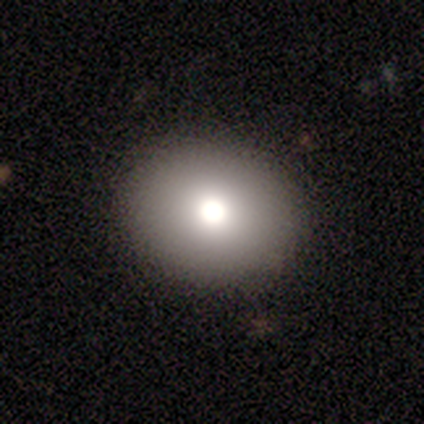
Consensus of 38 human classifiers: A smooth galaxy with no disk features (68%) that is round (65%). Merging: none (97%).